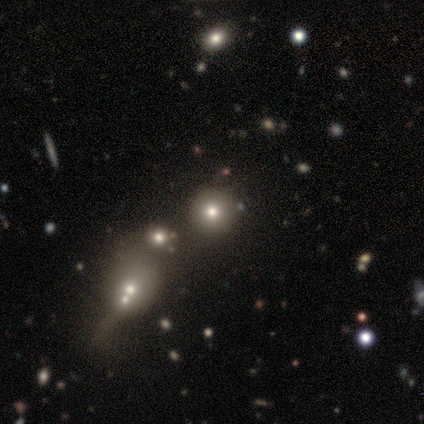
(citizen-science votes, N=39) Volunteers were most divided on "smooth or featured": smooth: 54%, star or artifact: 33%, featured or disk: 13%. More confident: how rounded — round (90%); merging — none (62%).